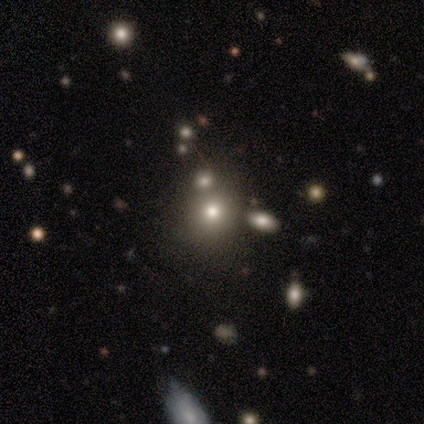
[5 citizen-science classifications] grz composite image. It shows a smooth galaxy with no disk features (60%) that is round (100%). Merging: none (67%).